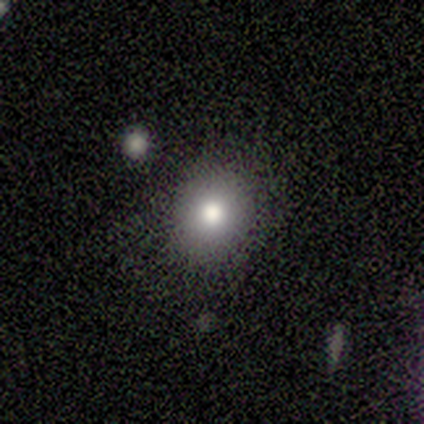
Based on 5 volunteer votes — Smooth or featured: smooth — 80% (featured or disk — 20%)
How rounded: round — 50% (tied with in between — 50%)
Merging: none — 100%